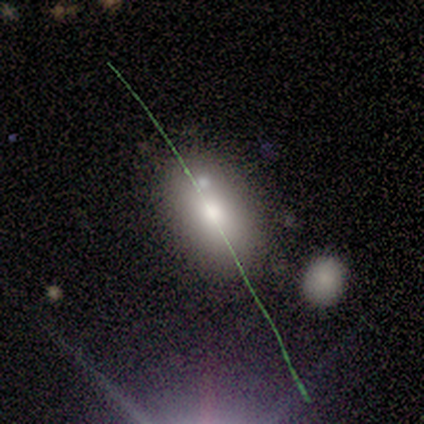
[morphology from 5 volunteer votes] Volunteers were most divided on "how rounded" (2-way tie): round: 50%, in between: 50%, cigar-shaped: 0%. More confident: smooth or featured — smooth (80%); merging — none (50%).